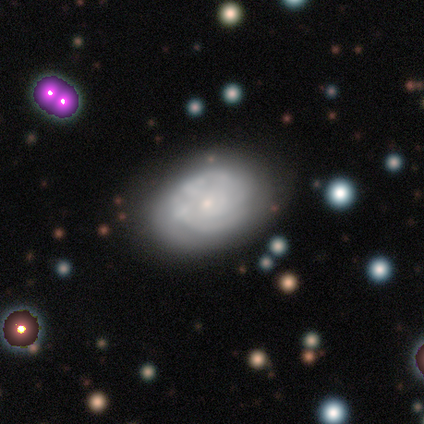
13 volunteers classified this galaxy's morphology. Smooth or featured? featured or disk (77%)
Edge-on disk? no (100%)
Bar? no (80%)
Spiral arms? yes (70%)
Spiral winding? tight (71%)
Spiral arm count? can't tell (86%)
Bulge size? small (80%)
Merging? none (62%)